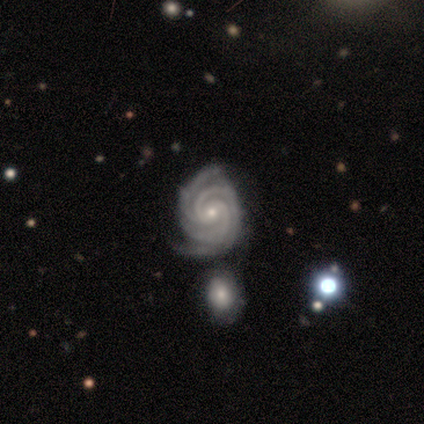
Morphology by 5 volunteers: This is clearly a featured or disk galaxy (100%). It is clearly not viewed edge-on (100%). Bar: likely weak (60%). Spiral arm pattern: clearly yes (100%). Spiral arm count: likely 3 (60%). Spiral winding: clearly tight (100%). Central bulge: clearly small (80%). Merging: clearly none (100%).